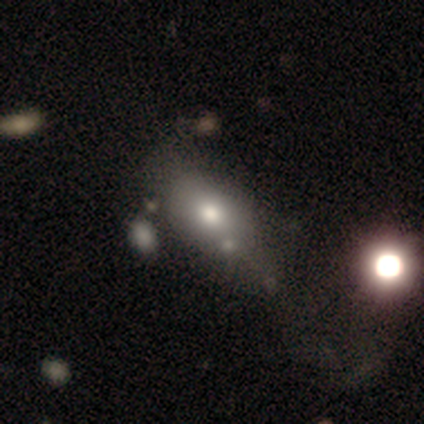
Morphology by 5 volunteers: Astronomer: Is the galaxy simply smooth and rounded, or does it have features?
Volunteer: smooth — 100%.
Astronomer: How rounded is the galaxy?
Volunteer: in between — 80%.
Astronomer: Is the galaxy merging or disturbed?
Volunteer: none — 60%.